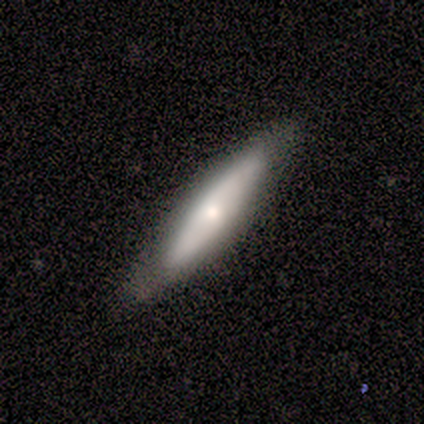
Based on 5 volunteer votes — Q: Smooth or featured?
A: smooth (40%); tied with: featured or disk (40%)
Q: How rounded?
A: in between (50%); tied with: cigar-shaped (50%)
Q: Merging?
A: minor disturbance (75%); runner-up: none (25%)